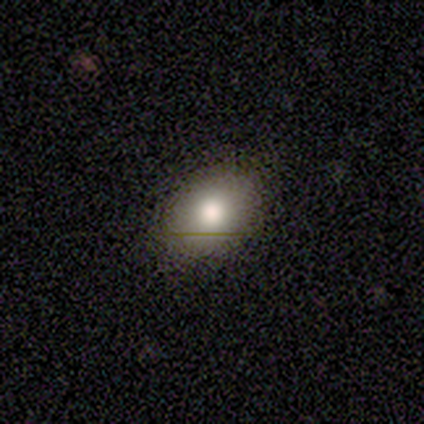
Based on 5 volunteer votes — Smooth or featured? 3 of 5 (60%) said smooth. How rounded? 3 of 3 (100%) said in between. Merging? 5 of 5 (100%) said none.